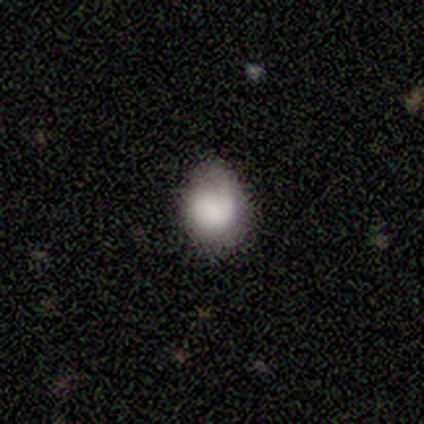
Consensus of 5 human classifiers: Overall: smooth (100%). How rounded: in between (80%). Merging: none (60%; minor disturbance 20%).